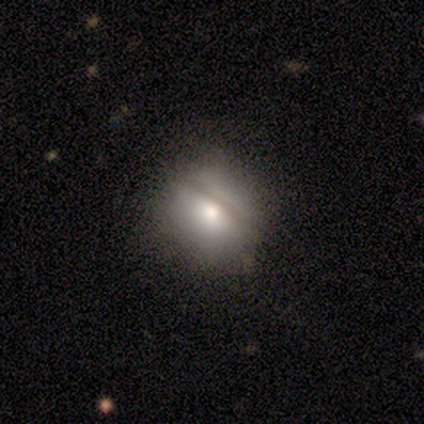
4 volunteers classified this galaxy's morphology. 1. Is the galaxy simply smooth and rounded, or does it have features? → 75% smooth, 25% star or artifact, 0% featured or disk.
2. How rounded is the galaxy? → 100% round, 0% in between, 0% cigar-shaped.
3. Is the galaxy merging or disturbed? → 100% none, 0% minor disturbance, 0% major disturbance, 0% merger.